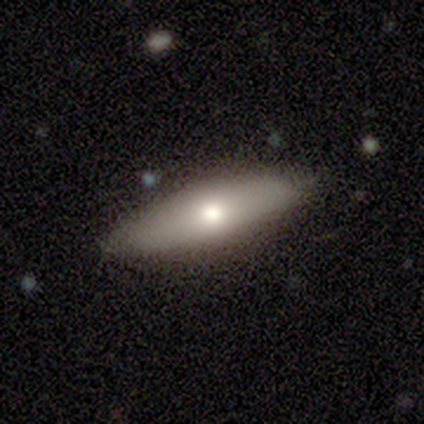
Smooth or featured?
  - smooth: 80% *
  - featured or disk: 20%
  - star or artifact: 0%
How rounded?
  - in between: 50% * (tied)
  - cigar-shaped: 50% * (tied)
  - round: 0%
Merging?
  - none: 100% *
  - minor disturbance: 0%
  - major disturbance: 0%
  - merger: 0%